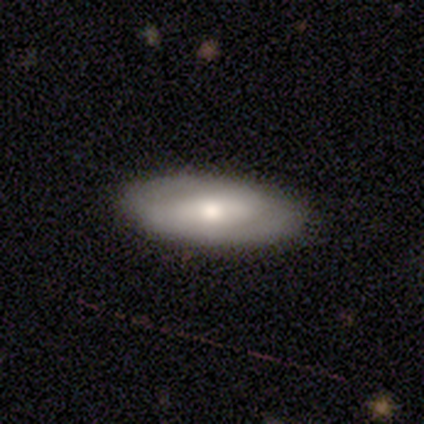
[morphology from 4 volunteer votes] Overall: featured or disk (75%). Edge-on disk: no (100%). Bar: no (67%; weak 33%). Spiral arms: no (67%; yes 33%). Bulge size: moderate (67%; small 33%). Merging: none (100%).